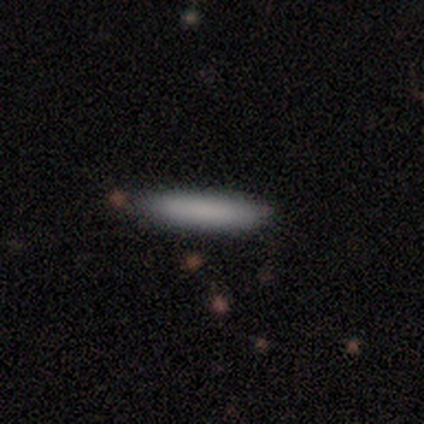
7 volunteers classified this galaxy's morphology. Overall: smooth (100%). How rounded: cigar-shaped (86%). Merging: none (86%).